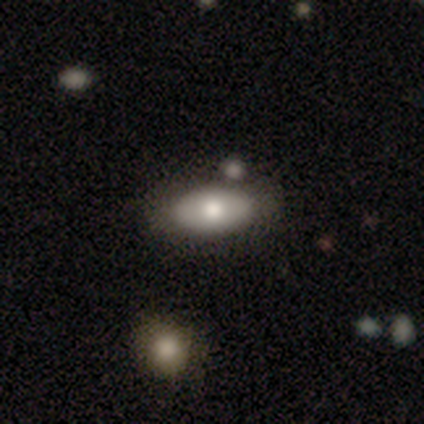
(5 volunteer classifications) Smooth or featured?
  - smooth: 80% *
  - star or artifact: 20%
  - featured or disk: 0%
How rounded?
  - in between: 100% *
  - round: 0%
  - cigar-shaped: 0%
Merging?
  - none: 50% * (tied)
  - merger: 50% * (tied)
  - minor disturbance: 0%
  - major disturbance: 0%